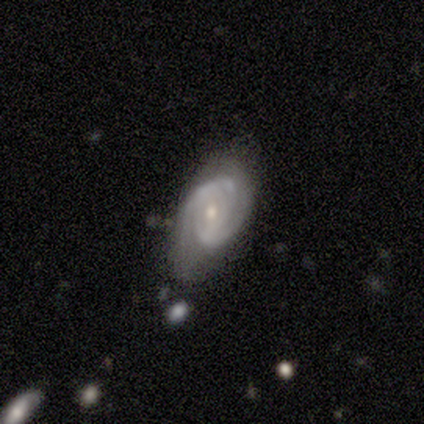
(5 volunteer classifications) Overall: featured or disk (80%). Edge-on disk: no (100%). Bar: weak (50%; strong 25%). Spiral arms: yes (100%). Spiral arm count: 3 (50%; 1 25%). Spiral winding: tight (75%). Bulge size: small (75%). Merging: none (100%).